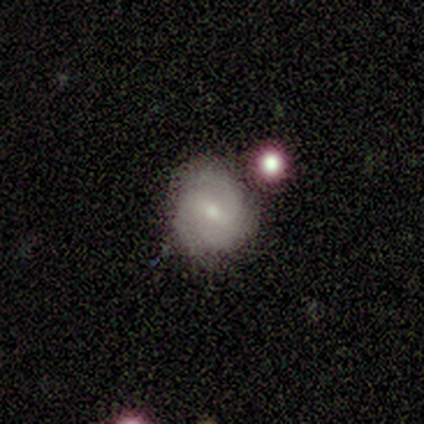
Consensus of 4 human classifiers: featured or disk 75%, smooth 25%, star or artifact 0%. Down the decision tree: edge-on disk — no (67%); bar — strong (50%, tied with weak); spiral arms — yes (100%); spiral arm count — 2 (50%, tied with 3); spiral winding — tight (50%, tied with medium); bulge size — small (100%); merging — none (75%).